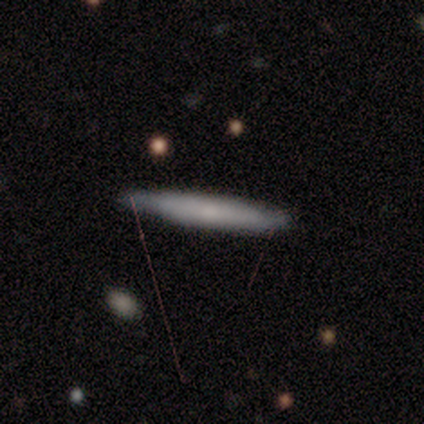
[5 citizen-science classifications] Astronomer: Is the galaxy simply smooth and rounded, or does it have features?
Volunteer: featured or disk — 60% (runner-up: smooth, 40%).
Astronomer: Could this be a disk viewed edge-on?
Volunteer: yes — 100%.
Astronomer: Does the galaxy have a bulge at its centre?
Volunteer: none — 67%.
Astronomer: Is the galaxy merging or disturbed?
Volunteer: none — 80%.